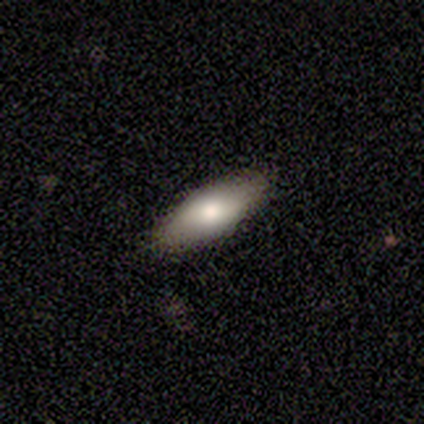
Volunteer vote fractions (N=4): Smooth or featured? smooth (50%, tied with featured or disk)
How rounded? in between (100%)
Merging? none (75%)